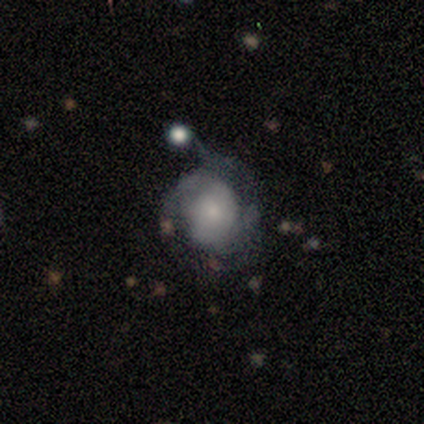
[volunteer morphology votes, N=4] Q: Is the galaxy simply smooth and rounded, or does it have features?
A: featured or disk — 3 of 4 (75%).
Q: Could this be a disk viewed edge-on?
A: no — 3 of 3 (100%).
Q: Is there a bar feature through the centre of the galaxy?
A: no — 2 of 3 (67%).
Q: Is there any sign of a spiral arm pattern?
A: yes — 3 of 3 (100%).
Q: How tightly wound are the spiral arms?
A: tight — 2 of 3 (67%).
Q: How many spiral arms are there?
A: can't tell — 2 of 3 (67%).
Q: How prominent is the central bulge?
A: small — 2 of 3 (67%).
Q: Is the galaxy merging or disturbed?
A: minor disturbance — 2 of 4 (50%).